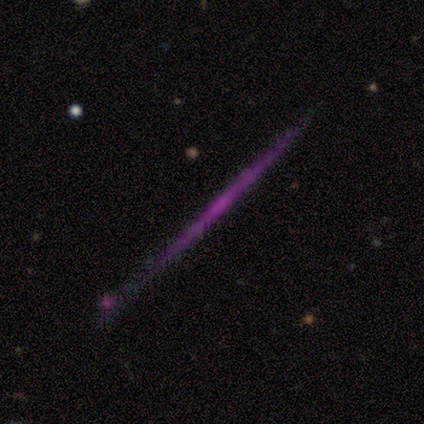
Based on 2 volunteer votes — smooth-or-featured: smooth: 50% (tied) | featured or disk: 50% (tied) | star or artifact: 0%
  how-rounded: cigar-shaped: 100% | round: 0% | in between: 0%
  merging: none: 100% | minor disturbance: 0% | major disturbance: 0% | merger: 0%